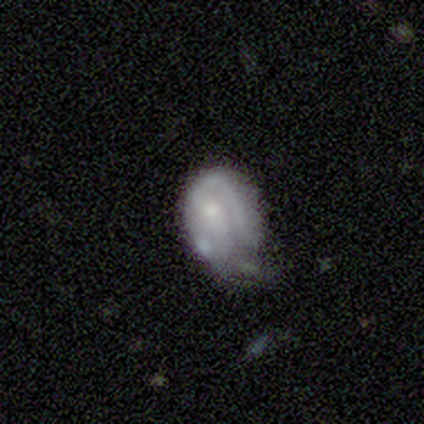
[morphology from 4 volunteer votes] Q: Smooth or featured?
A: smooth (50%); tied with: featured or disk (50%)
Q: How rounded?
A: round (100%)
Q: Merging?
A: minor disturbance (50%); tied with: major disturbance (50%)